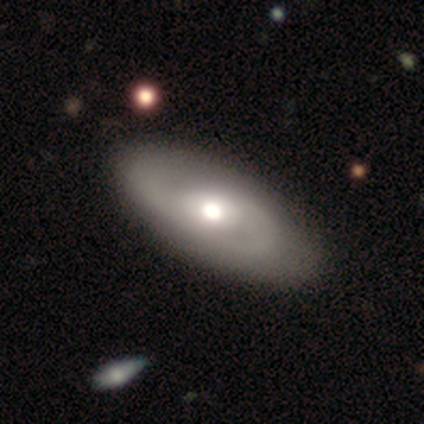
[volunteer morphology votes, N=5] A featured or disk galaxy (80%) with no bar (75%), 2 (100%) medium (100%) spiral arms (75%) and a moderate central bulge (50%).

Vote fractions:
- Smooth or featured? featured or disk: 80% / smooth: 20% / star or artifact: 0%
- Edge-on disk? no: 100% / yes: 0%
- Bar? no: 75% / strong: 25% / weak: 0%
- Spiral arms? yes: 75% / no: 25%
- Spiral winding? medium: 100% / tight: 0% / loose: 0%
- Spiral arm count? 2: 100% / 1: 0% / 3: 0% / 4: 0% / more than 4: 0% / can't tell: 0%
- Bulge size? moderate: 50% / large: 25% / small: 25% / dominant: 0% / none: 0%
- Merging? none: 80% / major disturbance: 20% / minor disturbance: 0% / merger: 0%